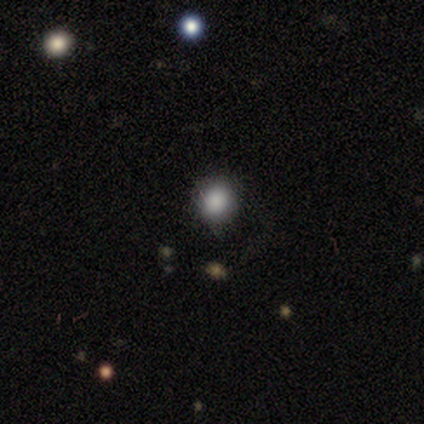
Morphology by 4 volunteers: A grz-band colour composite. It shows a smooth galaxy with no disk features (50%, tied with star or artifact) that is round (100%). Merging: none (100%).